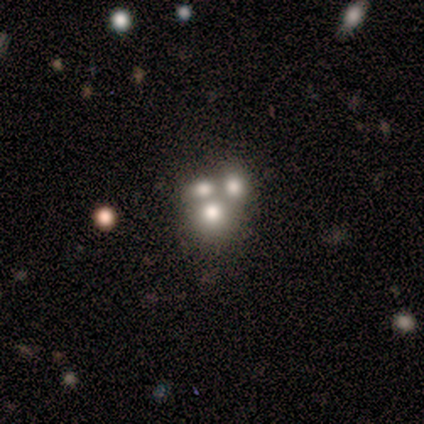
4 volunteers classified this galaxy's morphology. Q: Smooth or featured?
A: smooth (50%); runner-up: featured or disk (25%)
Q: How rounded?
A: round (50%); tied with: in between (50%)
Q: Merging?
A: merger (67%); runner-up: minor disturbance (33%)